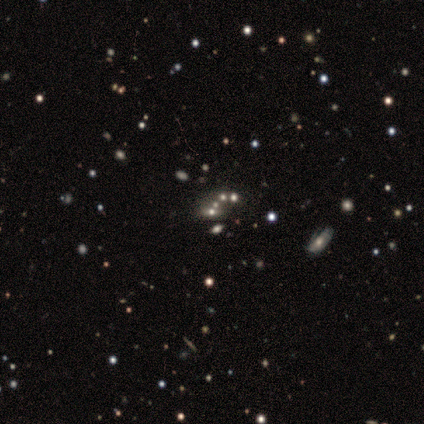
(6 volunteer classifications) Morphology: type=star or artifact (50%).